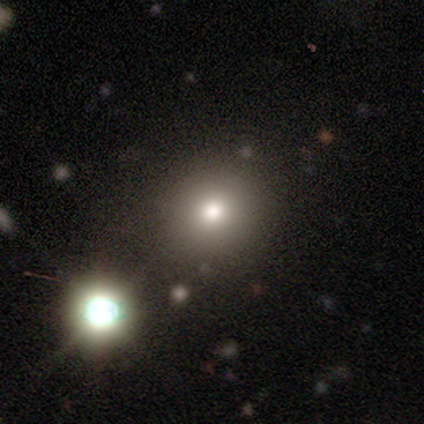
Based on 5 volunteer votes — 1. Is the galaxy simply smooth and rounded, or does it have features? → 60% smooth, 40% star or artifact, 0% featured or disk.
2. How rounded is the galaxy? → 100% round, 0% in between, 0% cigar-shaped.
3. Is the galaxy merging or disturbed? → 100% none, 0% minor disturbance, 0% major disturbance, 0% merger.